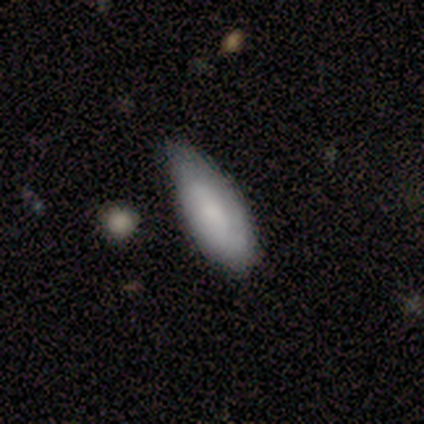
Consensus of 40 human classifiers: Smooth or featured? 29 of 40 (72%) said smooth. How rounded? 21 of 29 (72%) said in between. Merging? 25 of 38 (66%) said none.